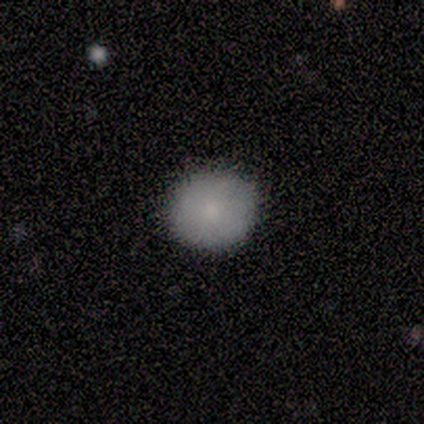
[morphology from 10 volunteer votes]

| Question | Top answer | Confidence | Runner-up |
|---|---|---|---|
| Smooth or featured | smooth | 70% | featured or disk (20%) |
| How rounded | round | 71% | in between (29%) |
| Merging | none | 100% | — |